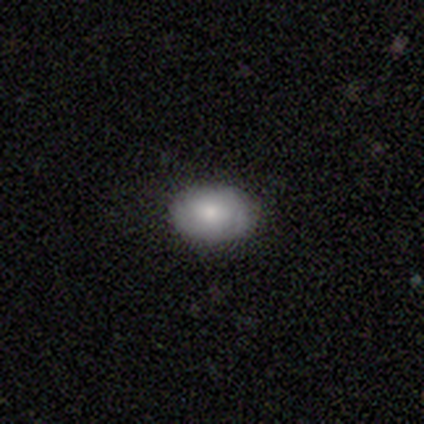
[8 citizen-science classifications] smooth_or_featured: smooth (p=0.75) [alt: featured or disk p=0.12]
how_rounded: in between (p=0.67) [alt: round p=0.33]
merging: none (p=1.00)